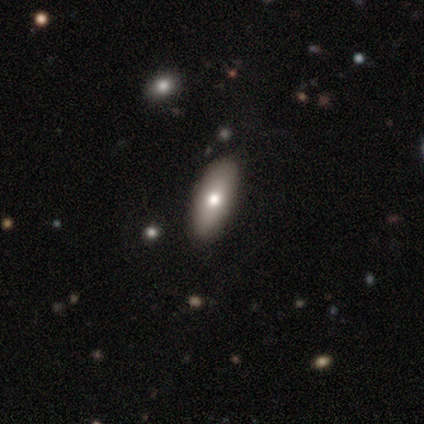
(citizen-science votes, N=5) This is likely a smooth galaxy (60%). How rounded: clearly in between (100%). Merging: clearly none (100%).